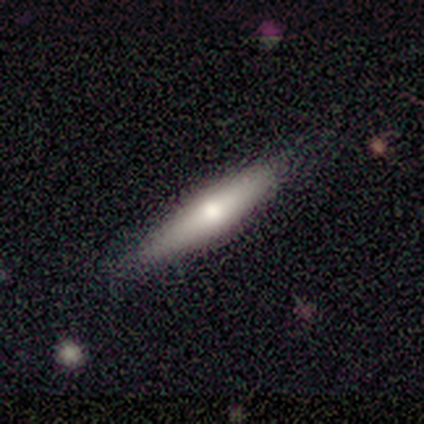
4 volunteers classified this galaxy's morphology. This is possibly a smooth galaxy (50%, tied with featured or disk). How rounded: clearly cigar-shaped (100%). Merging: likely none (75%).